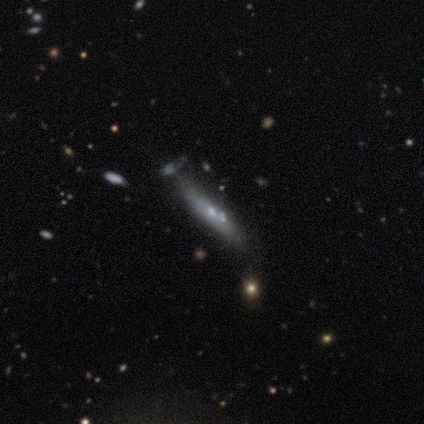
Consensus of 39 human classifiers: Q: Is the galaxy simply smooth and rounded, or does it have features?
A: featured or disk — 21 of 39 (54%).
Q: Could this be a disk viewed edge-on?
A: yes — 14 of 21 (67%).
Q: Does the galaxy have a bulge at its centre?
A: rounded — 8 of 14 (57%).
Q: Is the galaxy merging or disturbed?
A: none — 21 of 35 (60%).